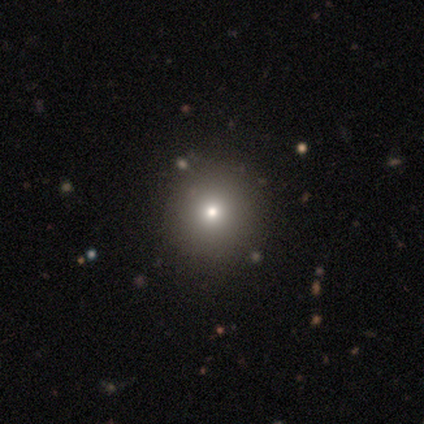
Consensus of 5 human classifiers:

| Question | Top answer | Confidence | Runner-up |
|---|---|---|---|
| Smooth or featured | smooth | 80% | featured or disk (20%) |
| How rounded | round | 100% | — |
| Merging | none | 100% | — |